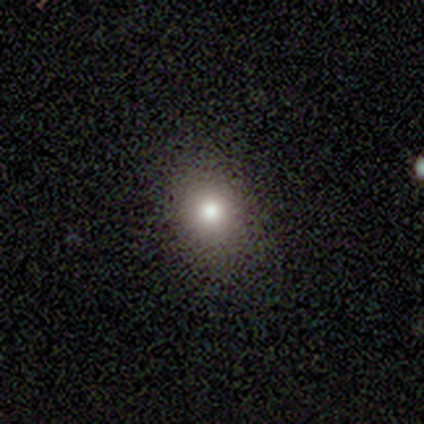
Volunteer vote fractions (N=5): Smooth or featured?
  - smooth: 60% *
  - star or artifact: 40%
  - featured or disk: 0%
How rounded?
  - round: 67% *
  - in between: 33%
  - cigar-shaped: 0%
Merging?
  - none: 67% *
  - major disturbance: 33%
  - minor disturbance: 0%
  - merger: 0%